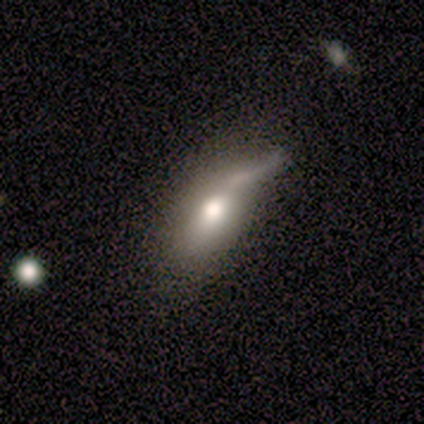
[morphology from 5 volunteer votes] A smooth galaxy with no disk features (40%, tied with star or artifact) that is in between round and cigar-shaped (100%).

Vote fractions:
- Smooth or featured? smooth: 40% (tied) / star or artifact: 40% (tied) / featured or disk: 20%
- How rounded? in between: 100% / round: 0% / cigar-shaped: 0%
- Merging? major disturbance: 67% / none: 33% / minor disturbance: 0% / merger: 0%